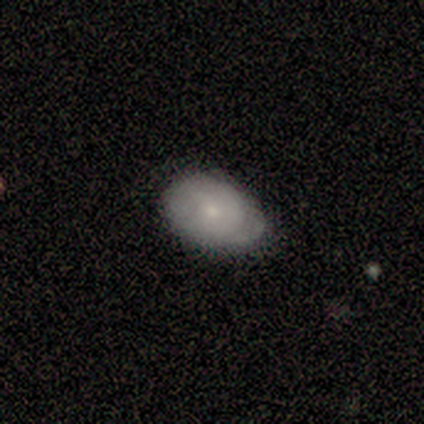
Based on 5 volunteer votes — Volunteers were most divided on "how rounded" (2-way tie): round: 50%, in between: 50%, cigar-shaped: 0%; "merging" (2-way tie): none: 40%, minor disturbance: 40%, merger: 20%, major disturbance: 0%. More confident: smooth or featured — smooth (80%).